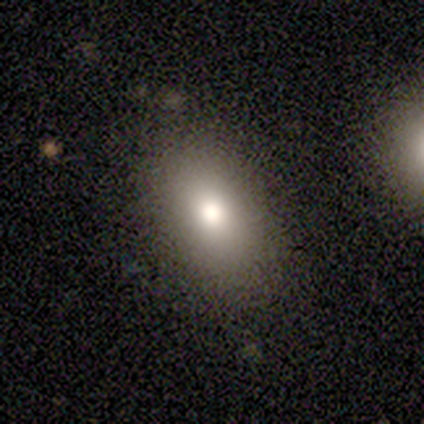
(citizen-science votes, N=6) Morphology: type=smooth (83%); roundness=in between (100%); merging=none (67%).